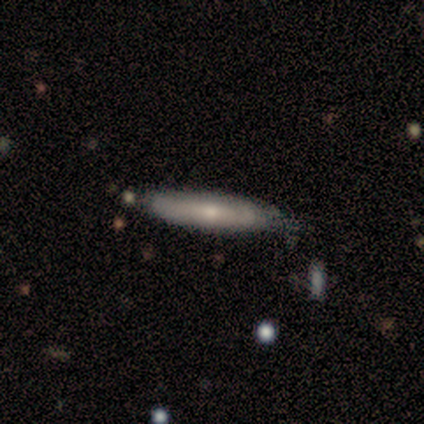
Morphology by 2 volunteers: smooth_or_featured: smooth (p=0.50) [tied with: featured or disk p=0.50]
how_rounded: cigar-shaped (p=1.00)
merging: none (p=1.00)